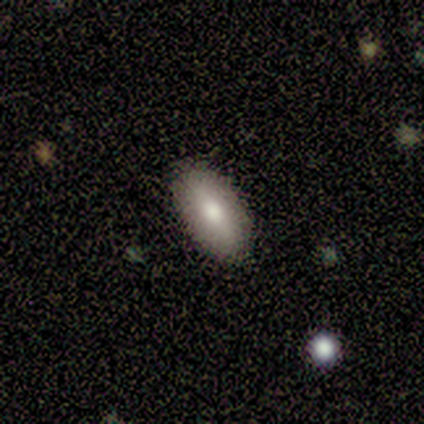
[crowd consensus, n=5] This appears to be a smooth galaxy with no disk features (60%) that is in between round and cigar-shaped (100%). Merging: none (100%).